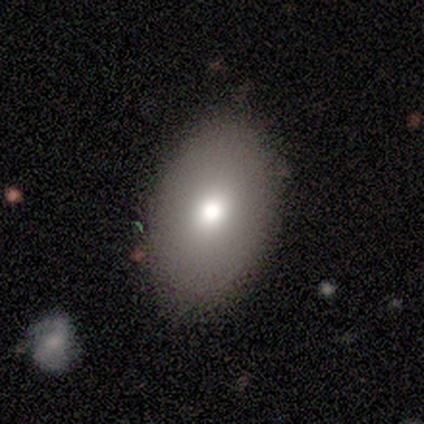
Smooth or featured? 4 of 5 (80%) said smooth. How rounded? 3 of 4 (75%) said in between. Merging? 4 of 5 (80%) said none.